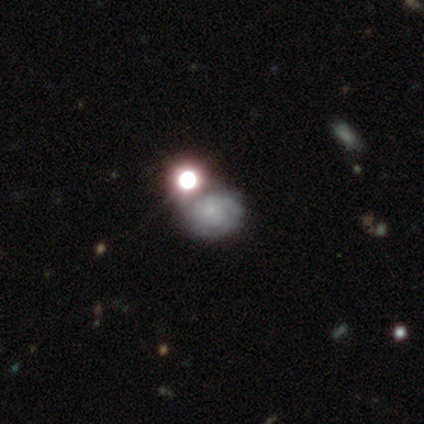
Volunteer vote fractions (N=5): Smooth or featured?
  - smooth: 80% *
  - featured or disk: 20%
  - star or artifact: 0%
How rounded?
  - round: 50% *
  - in between: 25%
  - cigar-shaped: 25%
Merging?
  - merger: 40% *
  - none: 20%
  - minor disturbance: 20%
  - major disturbance: 20%